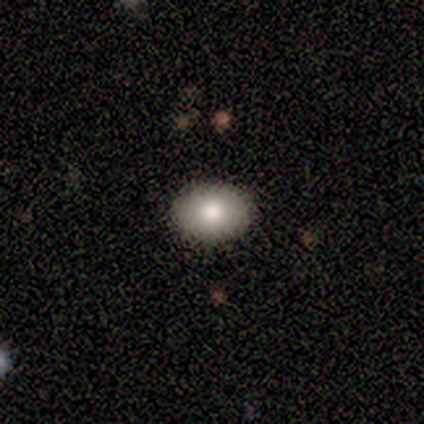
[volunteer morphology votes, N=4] type=smooth (100%); roundness=in between (100%); merging=none (100%).